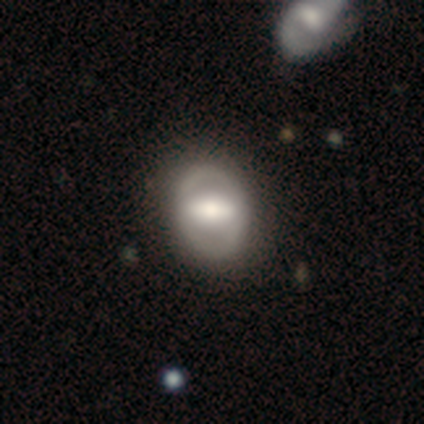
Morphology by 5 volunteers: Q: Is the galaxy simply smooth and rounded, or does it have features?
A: smooth — 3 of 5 (60%).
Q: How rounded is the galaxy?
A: in between — 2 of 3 (67%).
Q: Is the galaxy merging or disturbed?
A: none — 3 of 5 (60%).